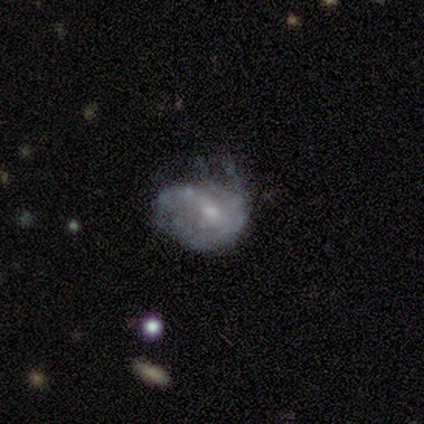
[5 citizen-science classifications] Smooth or featured? 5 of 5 (100%) said featured or disk. Edge-on disk? 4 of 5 (80%) said no. Bar? 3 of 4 (75%) said weak. Spiral arms? 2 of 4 (50%, tied with no) said yes. Spiral winding? 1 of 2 (50%, tied with loose) said medium. Spiral arm count? 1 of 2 (50%, tied with can't tell) said 4. Bulge size? 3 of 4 (75%) said small. Merging? 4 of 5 (80%) said none.